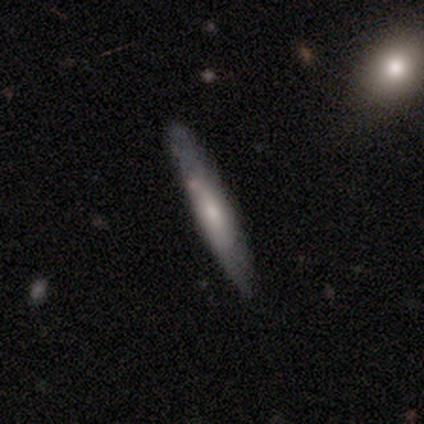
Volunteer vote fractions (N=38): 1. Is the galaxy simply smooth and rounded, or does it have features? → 58% smooth, 39% featured or disk, 3% star or artifact.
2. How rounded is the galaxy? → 82% cigar-shaped, 14% in between, 5% round.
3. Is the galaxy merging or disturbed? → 81% none, 11% minor disturbance, 5% merger, 3% major disturbance.